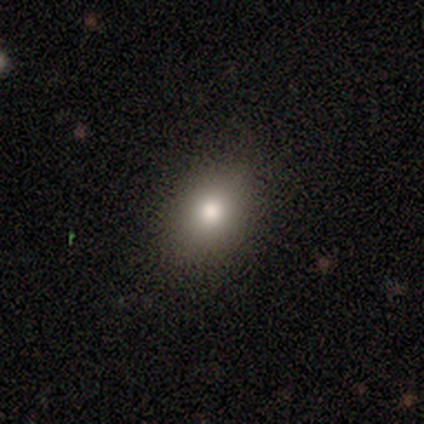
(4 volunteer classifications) A smooth galaxy with no disk features (100%) that is in between round and cigar-shaped (100%). Merging: none (100%).